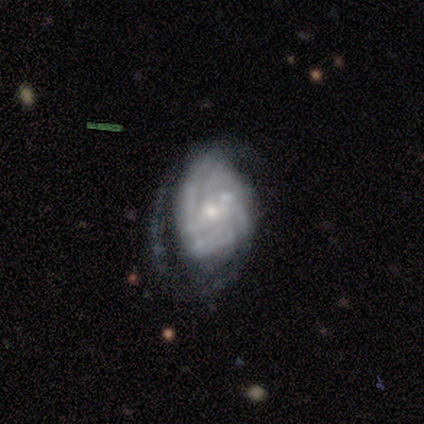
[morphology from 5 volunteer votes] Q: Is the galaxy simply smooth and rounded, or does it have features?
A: featured or disk — 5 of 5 (100%).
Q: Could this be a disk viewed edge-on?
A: no — 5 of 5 (100%).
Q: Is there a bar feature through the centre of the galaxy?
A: weak — 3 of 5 (60%).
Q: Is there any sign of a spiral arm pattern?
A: yes — 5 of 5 (100%).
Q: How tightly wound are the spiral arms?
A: tight — 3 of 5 (60%).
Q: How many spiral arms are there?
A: can't tell — 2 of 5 (40%).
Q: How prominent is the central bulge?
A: small — 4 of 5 (80%).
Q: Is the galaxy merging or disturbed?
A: none — 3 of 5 (60%).